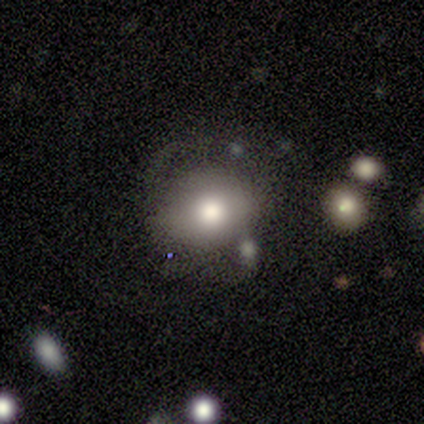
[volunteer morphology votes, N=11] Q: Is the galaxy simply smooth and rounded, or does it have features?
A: smooth — 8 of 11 (73%).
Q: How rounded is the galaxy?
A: round — 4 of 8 (50%, tied with in between).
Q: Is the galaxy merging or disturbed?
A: none — 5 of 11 (45%).